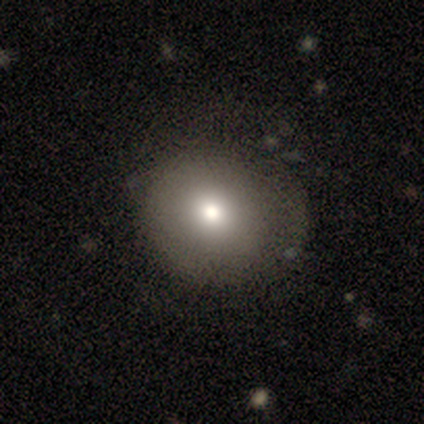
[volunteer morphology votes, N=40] Smooth or featured?
  - smooth: 75% *
  - featured or disk: 22%
  - star or artifact: 2%
How rounded?
  - round: 80% *
  - in between: 20%
  - cigar-shaped: 0%
Merging?
  - none: 54% *
  - minor disturbance: 10%
  - major disturbance: 5%
  - merger: 0%